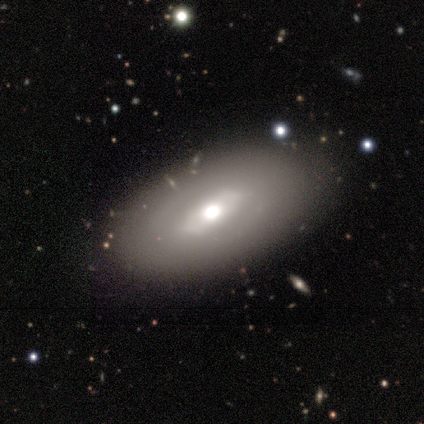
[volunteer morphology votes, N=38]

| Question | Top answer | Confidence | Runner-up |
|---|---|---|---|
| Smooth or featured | featured or disk | 53% | smooth (45%) |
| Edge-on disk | no | 85% | yes (15%) |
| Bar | weak | 47% | strong (35%) |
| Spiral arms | no | 88% | yes (12%) |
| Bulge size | moderate | 88% | large (12%) |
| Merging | none | 86% | minor disturbance (11%) |